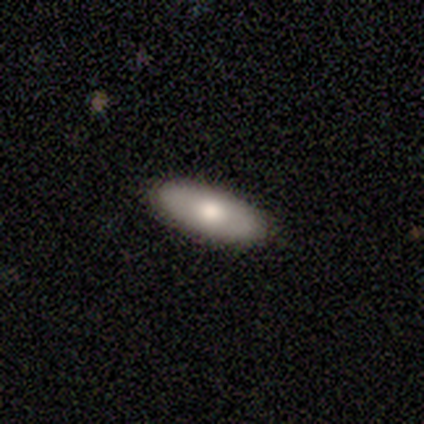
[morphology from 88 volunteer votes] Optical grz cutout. It shows a smooth galaxy with no disk features (73%) that is in between round and cigar-shaped (75%). Merging: none (90%).